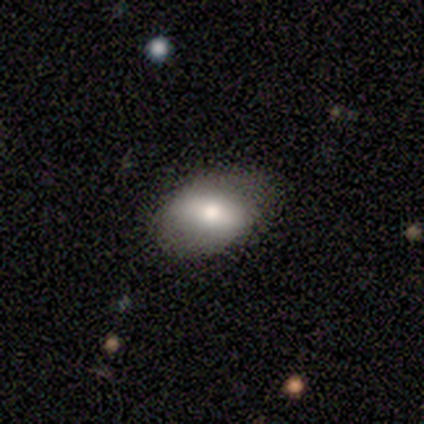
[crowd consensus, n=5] Q: Smooth or featured?
A: featured or disk (60%); runner-up: smooth (20%)
Q: Edge-on disk?
A: no (100%)
Q: Bar?
A: strong (67%); runner-up: weak (33%)
Q: Spiral arms?
A: no (100%)
Q: Bulge size?
A: large (33%); tied with: moderate (33%); small (33%)
Q: Merging?
A: none (100%)